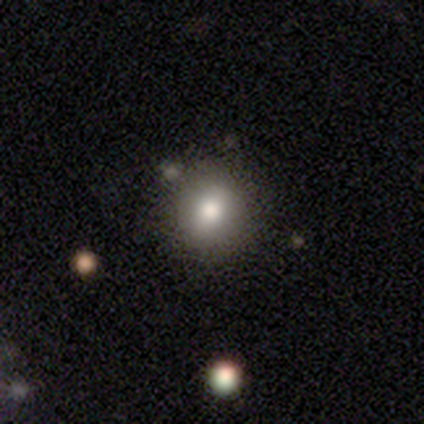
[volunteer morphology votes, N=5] A smooth galaxy with no disk features (80%) that is round (100%). Merging: none (100%).